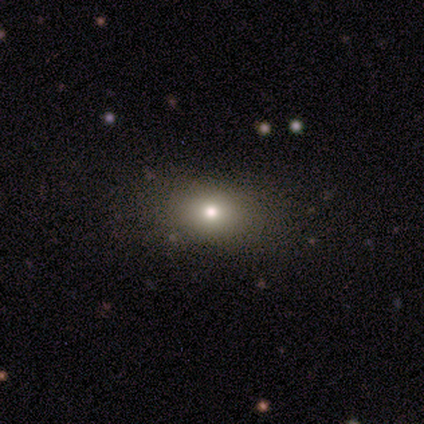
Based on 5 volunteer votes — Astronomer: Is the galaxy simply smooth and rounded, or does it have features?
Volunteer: smooth — 60% (runner-up: star or artifact, 40%).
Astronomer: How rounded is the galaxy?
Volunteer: in between — 100%.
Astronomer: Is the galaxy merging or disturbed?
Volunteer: none — 67%.